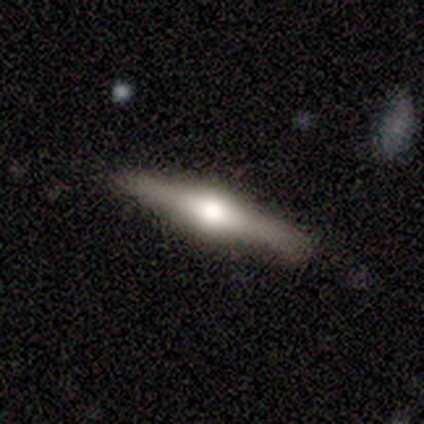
Morphology: type=featured or disk (60%); edge-on=yes (100%); edge-on bulge=rounded (100%); merging=none (100%).